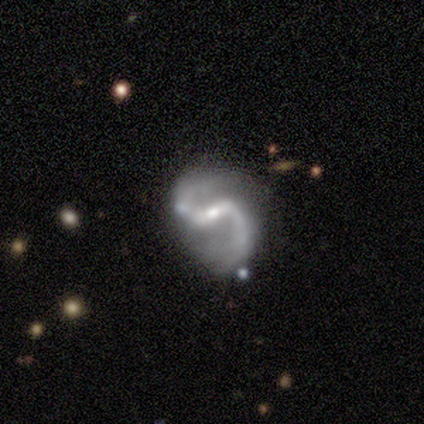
smooth-or-featured: featured or disk: 80% | star or artifact: 20% | smooth: 0%
  disk-edge-on: no: 100% | yes: 0%
    bar: weak: 50% | strong: 25% | no: 25%
    has-spiral-arms: yes: 100% | no: 0%
      spiral-winding: loose: 75% | medium: 25% | tight: 0%
      spiral-arm-count: 2: 75% | 1: 25% | 3: 0% | 4: 0% | more than 4: 0% | can't tell: 0%
    bulge-size: small: 75% | none: 25% | dominant: 0% | large: 0% | moderate: 0%
  merging: minor disturbance: 50% | none: 25% | merger: 25% | major disturbance: 0%